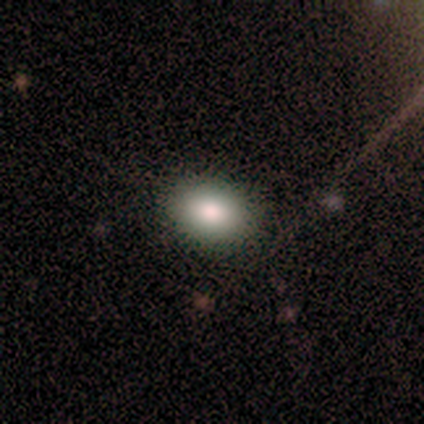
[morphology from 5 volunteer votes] Smooth or featured? smooth (100%)
How rounded? in between (60%)
Merging? none (100%)